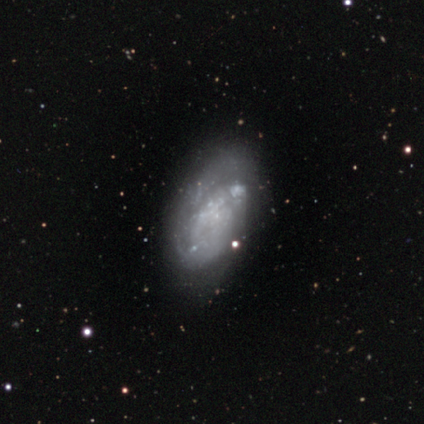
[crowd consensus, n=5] smooth-or-featured: featured or disk: 60% | smooth: 40% | star or artifact: 0%
  disk-edge-on: no: 100% | yes: 0%
    bar: no: 100% | strong: 0% | weak: 0%
    has-spiral-arms: yes: 67% | no: 33%
      spiral-winding: tight: 50% (tied) | medium: 50% (tied) | loose: 0%
      spiral-arm-count: 2: 100% | 1: 0% | 3: 0% | 4: 0% | more than 4: 0% | can't tell: 0%
    bulge-size: none: 100% | dominant: 0% | large: 0% | moderate: 0% | small: 0%
  merging: none: 60% | minor disturbance: 20% | major disturbance: 20% | merger: 0%